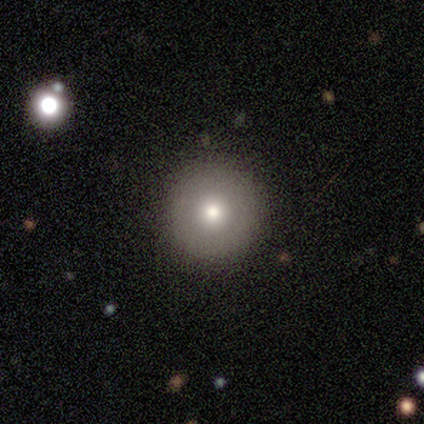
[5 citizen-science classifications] smooth-or-featured: smooth: 40% (tied) | featured or disk: 40% (tied) | star or artifact: 20%
  how-rounded: round: 100% | in between: 0% | cigar-shaped: 0%
  merging: none: 100% | minor disturbance: 0% | major disturbance: 0% | merger: 0%